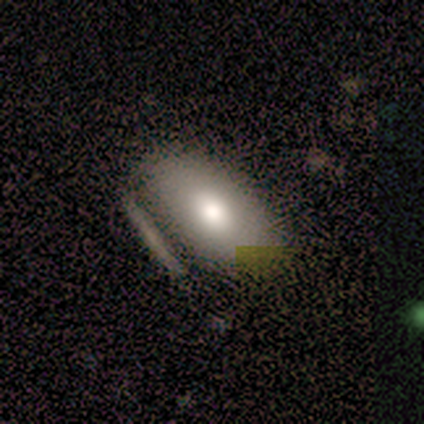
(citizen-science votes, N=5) smooth-or-featured: smooth: 60% | featured or disk: 40% | star or artifact: 0%
  how-rounded: in between: 100% | round: 0% | cigar-shaped: 0%
  merging: none: 40% (tied) | minor disturbance: 40% (tied) | merger: 20% | major disturbance: 0%